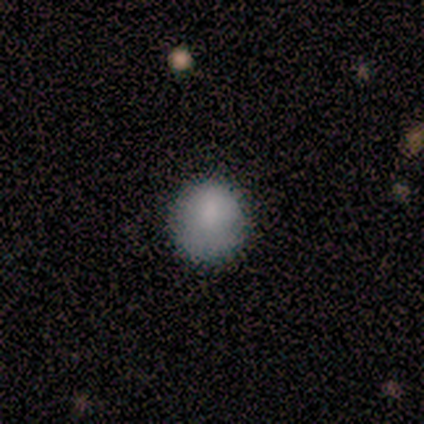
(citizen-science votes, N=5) Smooth or featured? 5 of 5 (100%) said smooth. How rounded? 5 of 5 (100%) said round. Merging? 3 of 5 (60%) said none.